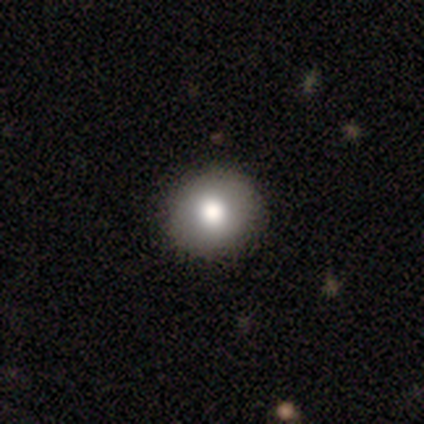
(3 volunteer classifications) A smooth galaxy with no disk features (100%) that is round (67%).

Vote fractions:
- Smooth or featured? smooth: 100% / featured or disk: 0% / star or artifact: 0%
- How rounded? round: 67% / in between: 33% / cigar-shaped: 0%
- Merging? none: 100% / minor disturbance: 0% / major disturbance: 0% / merger: 0%